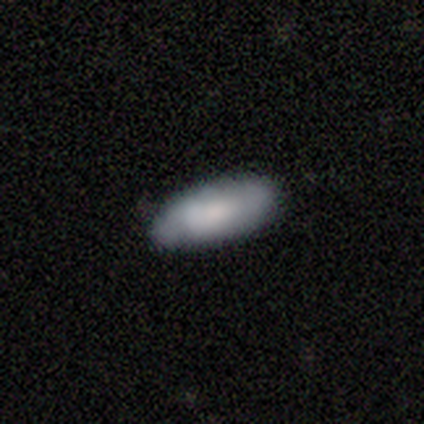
Smooth or featured? smooth (89%)
How rounded? in between (84%)
Merging? none (77%)